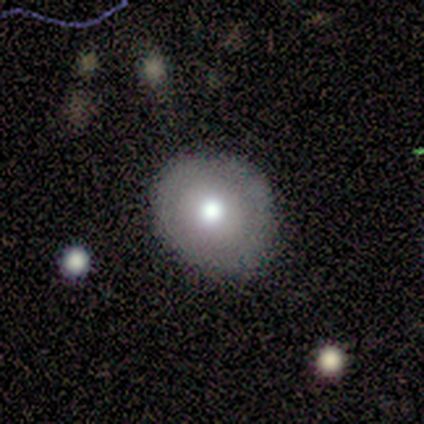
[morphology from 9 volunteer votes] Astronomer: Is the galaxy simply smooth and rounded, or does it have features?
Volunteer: smooth — 56% (runner-up: featured or disk, 33%).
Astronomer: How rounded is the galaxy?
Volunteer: round — 100%.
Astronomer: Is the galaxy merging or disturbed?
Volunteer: none — 75%.